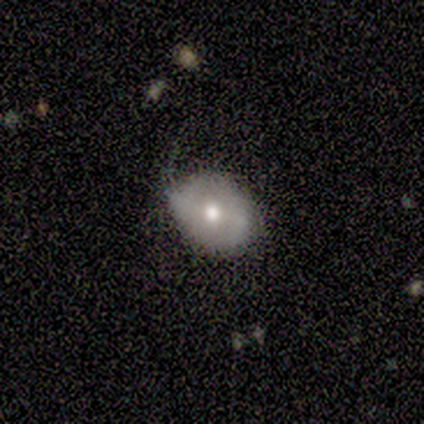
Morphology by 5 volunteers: Smooth or featured? 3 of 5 (60%) said featured or disk. Edge-on disk? 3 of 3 (100%) said no. Bar? 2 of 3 (67%) said weak. Spiral arms? 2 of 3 (67%) said no. Bulge size? 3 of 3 (100%) said moderate. Merging? 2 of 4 (50%) said minor disturbance.